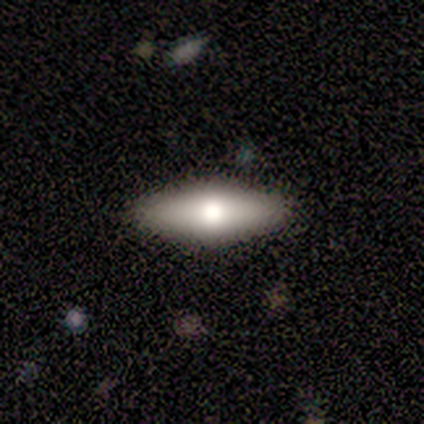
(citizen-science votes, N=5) Overall: smooth (60%; featured or disk 20%). How rounded: cigar-shaped (67%; in between 33%). Merging: none (100%).